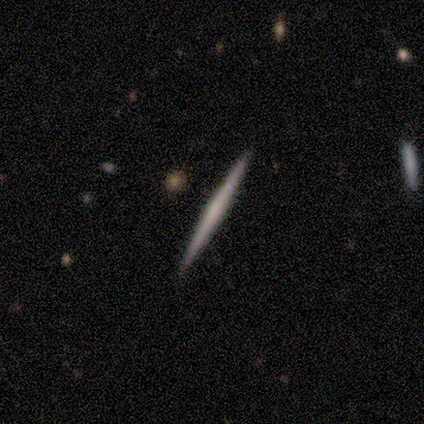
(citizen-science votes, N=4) Q: Smooth or featured?
A: smooth (50%); tied with: featured or disk (50%)
Q: How rounded?
A: cigar-shaped (100%)
Q: Merging?
A: none (100%)